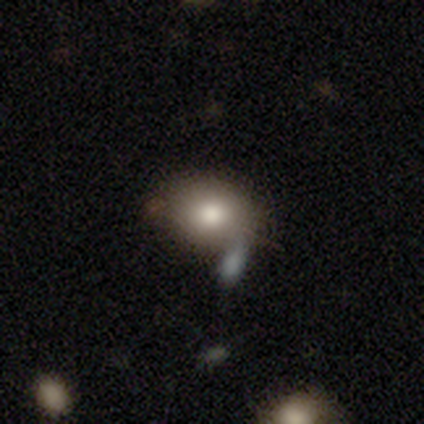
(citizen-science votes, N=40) Overall: smooth (70%). How rounded: in between (57%; round 39%). Merging: none (62%; minor disturbance 24%).